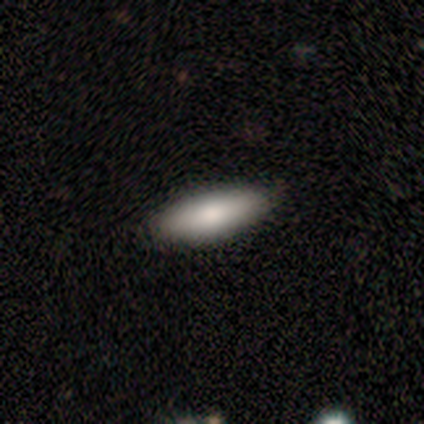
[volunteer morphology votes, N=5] smooth_or_featured: smooth (p=0.80) [alt: featured or disk p=0.20]
how_rounded: in between (p=0.75) [alt: cigar-shaped p=0.25]
merging: none (p=0.40) [tied with: merger p=0.40]